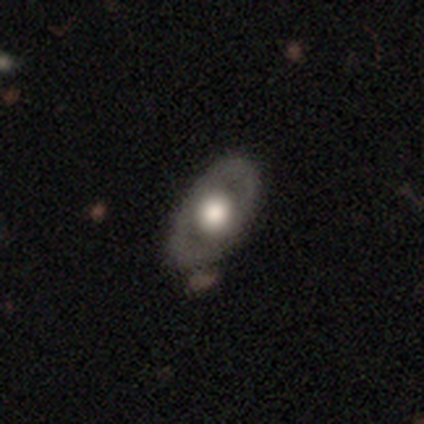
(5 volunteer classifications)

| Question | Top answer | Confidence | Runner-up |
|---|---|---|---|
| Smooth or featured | featured or disk | 80% | smooth (20%) |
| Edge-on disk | no | 75% | yes (25%) |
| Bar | no | 67% | weak (33%) |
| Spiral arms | no | 67% | yes (33%) |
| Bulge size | large | 67% | dominant (33%) |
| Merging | none | 80% | minor disturbance (20%) |